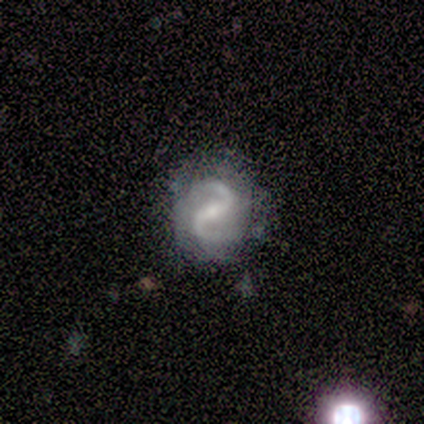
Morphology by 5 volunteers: Overall: featured or disk (100%). Edge-on disk: no (100%). Bar: weak (60%; strong 40%). Spiral arms: yes (100%). Spiral arm count: 2 (80%). Spiral winding: medium (100%). Bulge size: small (60%; moderate 40%). Merging: none (100%).